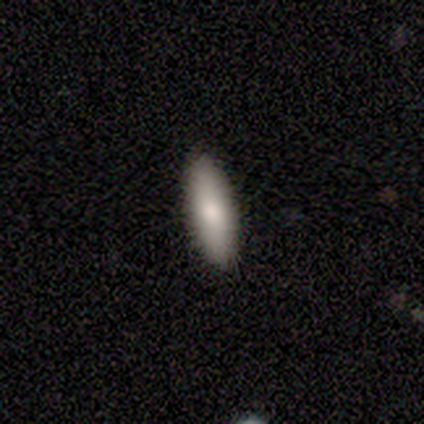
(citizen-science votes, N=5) Smooth or featured? smooth (80%)
How rounded? in between (100%)
Merging? none (100%)